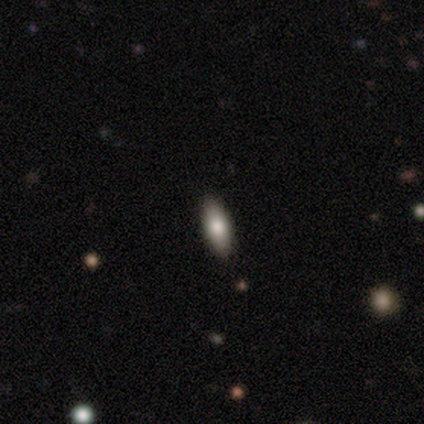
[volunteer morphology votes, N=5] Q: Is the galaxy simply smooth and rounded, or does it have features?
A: smooth — 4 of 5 (80%).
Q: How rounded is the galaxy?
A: in between — 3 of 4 (75%).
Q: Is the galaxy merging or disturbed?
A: none — 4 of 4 (100%).